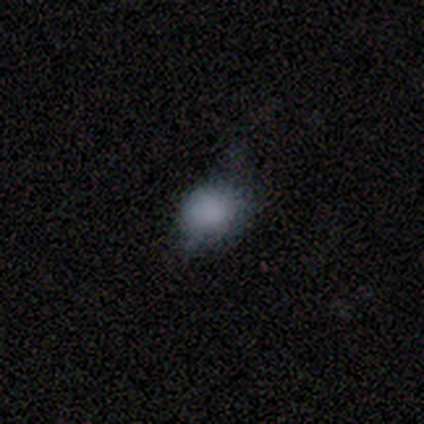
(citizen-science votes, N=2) Consensus on every question: smooth or featured — smooth (100%); how rounded — in between (100%); merging — minor disturbance (100%).